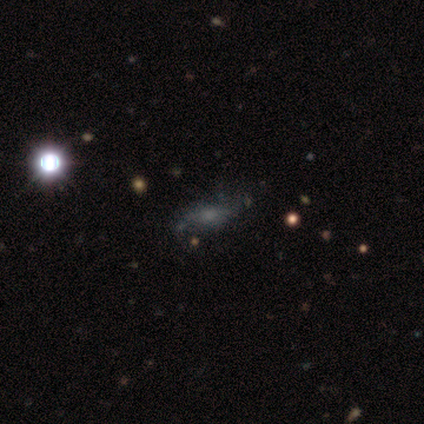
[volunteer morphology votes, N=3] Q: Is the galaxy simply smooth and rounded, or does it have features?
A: star or artifact — 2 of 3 (67%).